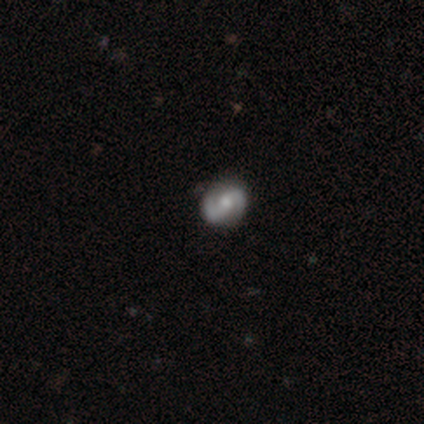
Smooth or featured: featured or disk — 40% (tied with star or artifact — 40%)
Edge-on disk: no — 100%
Bar: no — 100%
Spiral arms: yes — 100%
Spiral winding: tight — 50% (tied with medium — 50%)
Spiral arm count: 2 — 100%
Bulge size: moderate — 100%
Merging: none — 33% (tied with minor disturbance — 33%; major disturbance — 33%)